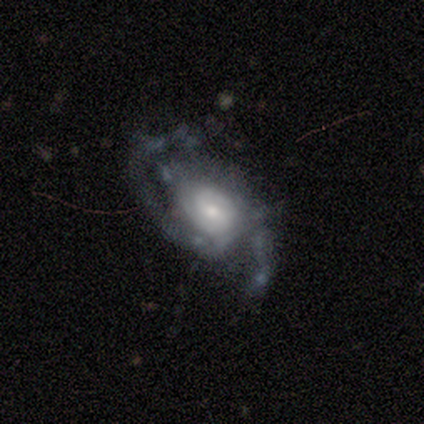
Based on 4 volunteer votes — Smooth or featured? 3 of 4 (75%) said featured or disk. Edge-on disk? 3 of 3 (100%) said no. Bar? 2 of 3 (67%) said no. Spiral arms? 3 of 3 (100%) said yes. Spiral winding? 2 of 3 (67%) said medium. Spiral arm count? 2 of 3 (67%) said 2. Bulge size? 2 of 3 (67%) said moderate. Merging? 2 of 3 (67%) said none.